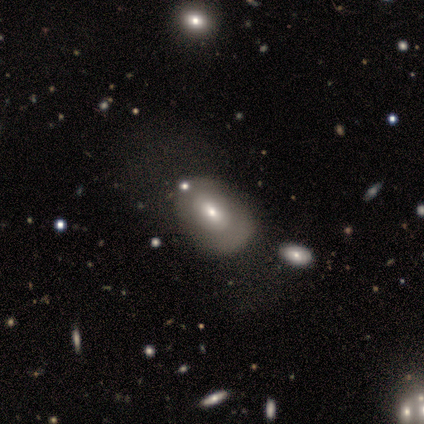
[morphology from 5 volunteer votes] Volunteers were most divided on "smooth or featured": smooth: 60%, featured or disk: 40%, star or artifact: 0%. More confident: how rounded — in between (67%); merging — none (60%).